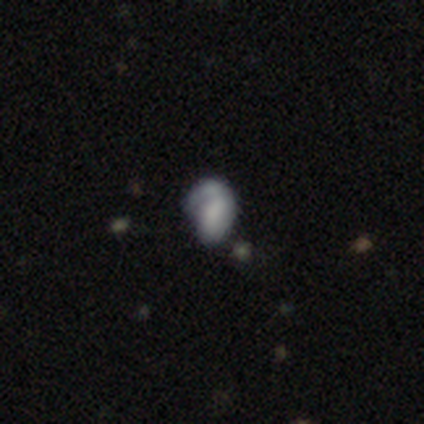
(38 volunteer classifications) Smooth or featured? smooth (55%)
How rounded? in between (95%)
Merging? minor disturbance (41%)